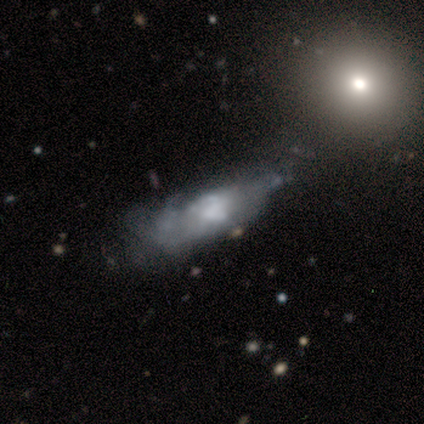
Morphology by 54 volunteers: smooth-or-featured: featured or disk: 56% | smooth: 35% | star or artifact: 9%
  disk-edge-on: no: 87% | yes: 13%
    bar: no: 92% | weak: 8% | strong: 0%
    has-spiral-arms: no: 88% | yes: 12%
    bulge-size: none: 35% | moderate: 31% | large: 27% | small: 8% | dominant: 0%
  merging: none: 31% (tied) | major disturbance: 31% (tied) | minor disturbance: 29% | merger: 10%